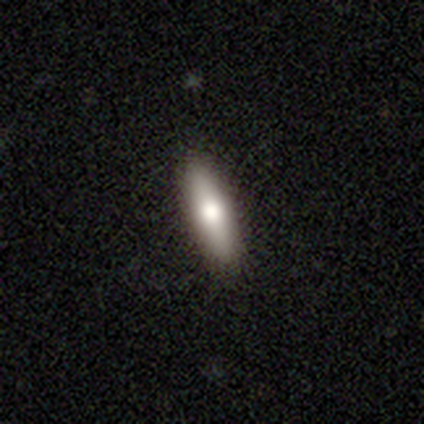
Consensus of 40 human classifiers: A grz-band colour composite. It shows a smooth galaxy with no disk features (60%) that is cigar-shaped (75%). Merging: none (87%).